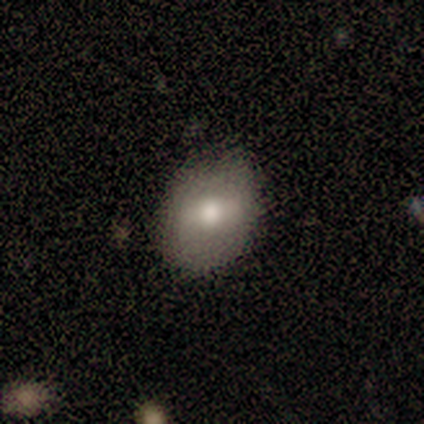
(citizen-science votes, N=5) A smooth galaxy with no disk features (60%) that is in between round and cigar-shaped (100%). Merging: none (80%).